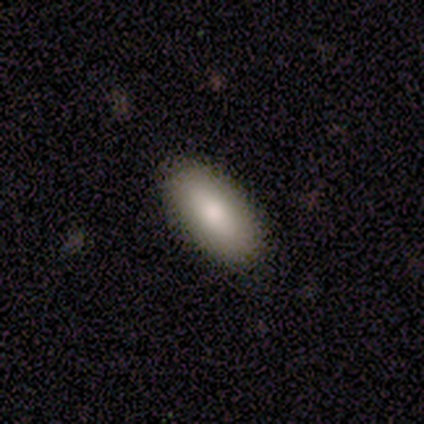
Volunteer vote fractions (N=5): Volunteers were most divided on "smooth or featured": smooth: 80%, star or artifact: 20%, featured or disk: 0%. More confident: how rounded — in between (100%); merging — none (100%).